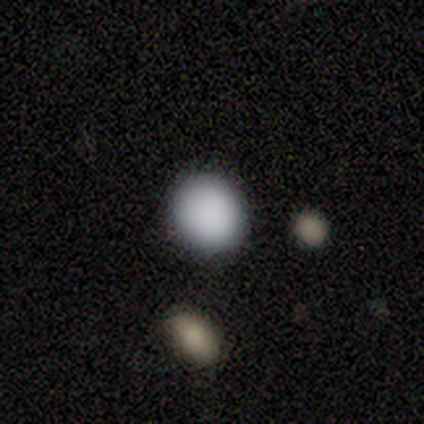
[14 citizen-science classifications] Morphology: type=smooth (93%); roundness=round (85%); merging=none (100%).